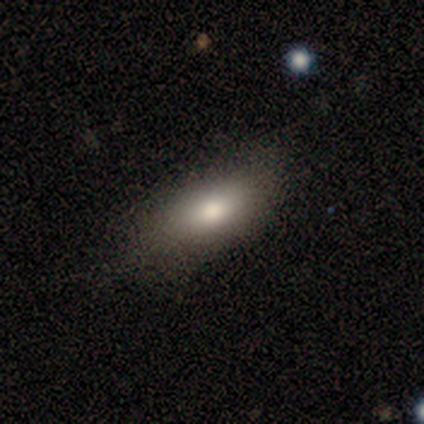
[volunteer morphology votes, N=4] smooth_or_featured: smooth (p=0.75) [alt: featured or disk p=0.25]
how_rounded: in between (p=1.00)
merging: none (p=0.50) [alt: minor disturbance p=0.25]